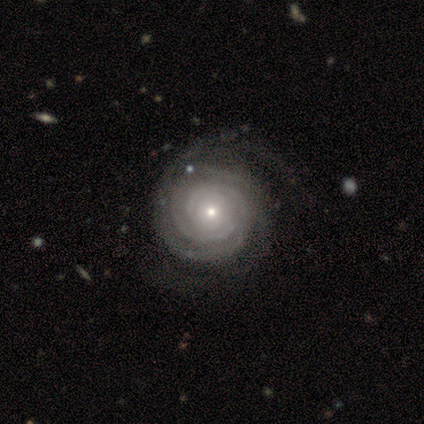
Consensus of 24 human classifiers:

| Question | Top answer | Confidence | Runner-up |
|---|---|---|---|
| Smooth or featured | featured or disk | 92% | smooth (8%) |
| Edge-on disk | no | 95% | yes (5%) |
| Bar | no | 95% | strong (5%) |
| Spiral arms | yes | 100% | — |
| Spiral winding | tight | 95% | medium (5%) |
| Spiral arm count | can't tell | 43% | 2 (38%) |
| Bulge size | small | 52% | moderate (38%) |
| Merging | none | 75% | minor disturbance (21%) |